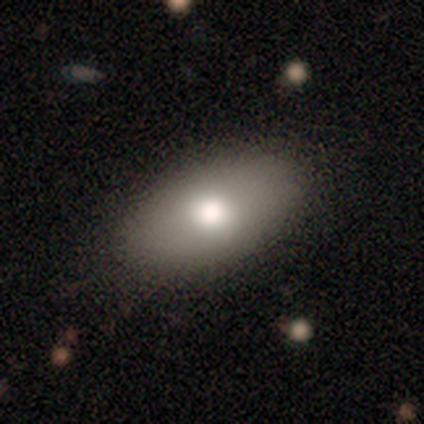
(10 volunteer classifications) Smooth or featured: smooth — 80% (featured or disk — 20%)
How rounded: in between — 88% (round — 12%)
Merging: none — 80% (minor disturbance — 20%)